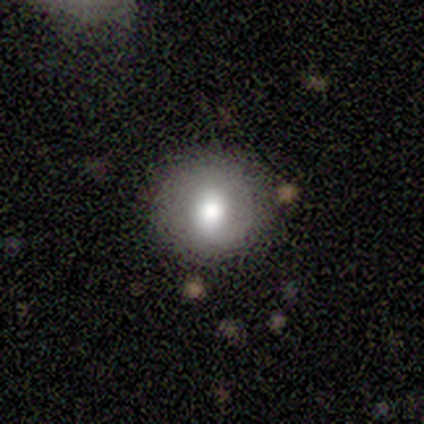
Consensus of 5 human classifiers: smooth 100%, featured or disk 0%, star or artifact 0%. Down the decision tree: how rounded — round (60%); merging — none (60%).